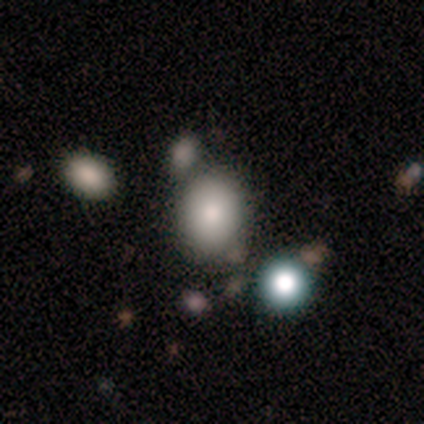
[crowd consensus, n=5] smooth 80%, star or artifact 20%, featured or disk 0%. Down the decision tree: how rounded — in between (75%); merging — none (50%, tied with minor disturbance).